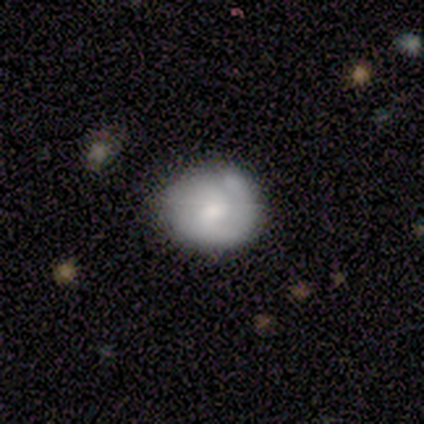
A smooth galaxy with no disk features (40%, tied with featured or disk) that is round (100%).

Vote fractions:
- Smooth or featured? smooth: 40% (tied) / featured or disk: 40% (tied) / star or artifact: 20%
- How rounded? round: 100% / in between: 0% / cigar-shaped: 0%
- Merging? none: 100% / minor disturbance: 0% / major disturbance: 0% / merger: 0%